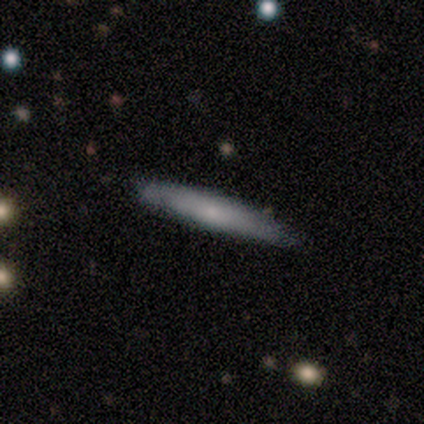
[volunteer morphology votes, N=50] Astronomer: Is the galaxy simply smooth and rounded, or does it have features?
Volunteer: smooth — 74%.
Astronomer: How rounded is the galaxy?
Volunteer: cigar-shaped — 100%.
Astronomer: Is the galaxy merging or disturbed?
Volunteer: none — 71%.